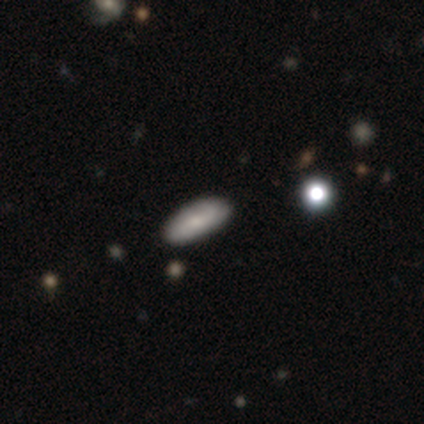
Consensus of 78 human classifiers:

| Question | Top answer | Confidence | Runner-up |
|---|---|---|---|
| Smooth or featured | smooth | 64% | featured or disk (26%) |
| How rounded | in between | 78% | cigar-shaped (20%) |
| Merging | none | 87% | minor disturbance (9%) |